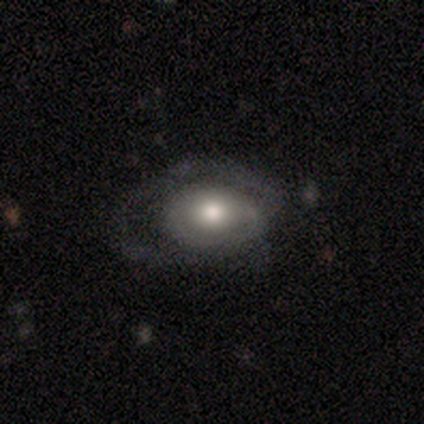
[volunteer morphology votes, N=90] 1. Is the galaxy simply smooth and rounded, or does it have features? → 50% featured or disk, 42% smooth, 8% star or artifact.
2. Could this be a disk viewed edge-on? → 100% no, 0% yes.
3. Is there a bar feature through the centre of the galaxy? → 93% no, 4% weak, 2% strong.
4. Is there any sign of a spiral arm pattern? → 58% no, 42% yes.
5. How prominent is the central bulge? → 64% moderate, 20% large, 9% small, 4% dominant, 2% none.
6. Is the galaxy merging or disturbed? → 45% major disturbance, 34% none, 22% minor disturbance, 0% merger.